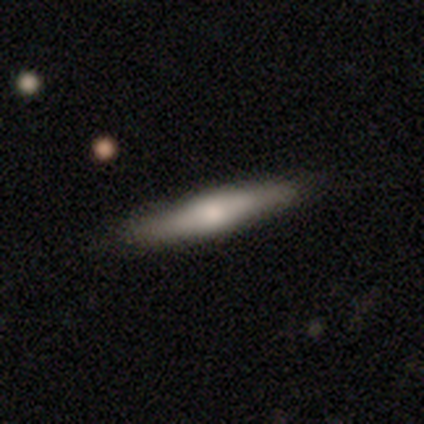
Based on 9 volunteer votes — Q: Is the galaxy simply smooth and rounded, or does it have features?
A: featured or disk — 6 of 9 (67%).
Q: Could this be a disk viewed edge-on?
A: yes — 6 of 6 (100%).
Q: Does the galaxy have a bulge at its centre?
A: rounded — 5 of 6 (83%).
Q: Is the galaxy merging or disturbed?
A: none — 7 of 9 (78%).